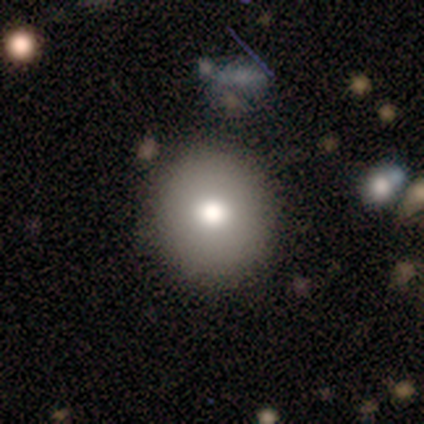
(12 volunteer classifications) Smooth or featured: smooth — 67% (featured or disk — 25%)
How rounded: round — 88% (in between — 12%)
Merging: none — 100%